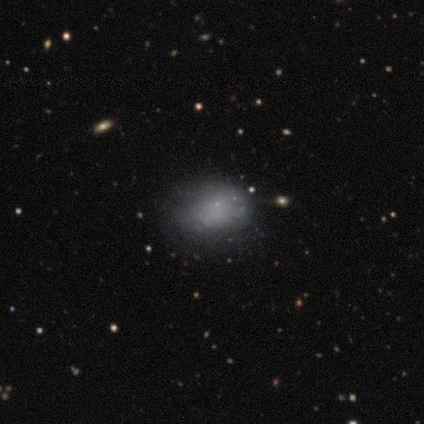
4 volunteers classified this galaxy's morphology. smooth_or_featured: smooth (p=1.00)
how_rounded: in between (p=0.75) [alt: round p=0.25]
merging: none (p=1.00)